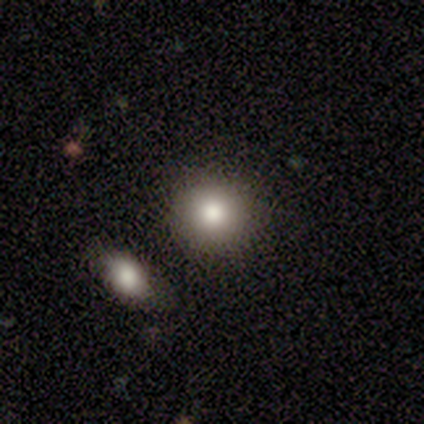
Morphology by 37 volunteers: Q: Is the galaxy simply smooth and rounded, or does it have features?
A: smooth — 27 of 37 (73%).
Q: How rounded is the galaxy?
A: round — 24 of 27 (89%).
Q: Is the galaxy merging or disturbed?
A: none — 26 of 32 (81%).